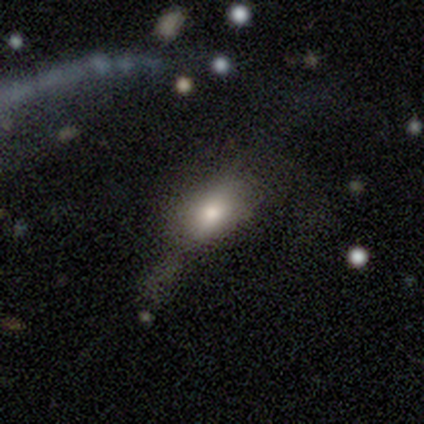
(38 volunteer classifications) This appears to be a smooth galaxy with no disk features (76%) that is in between round and cigar-shaped (93%). Merging: major disturbance (54%).